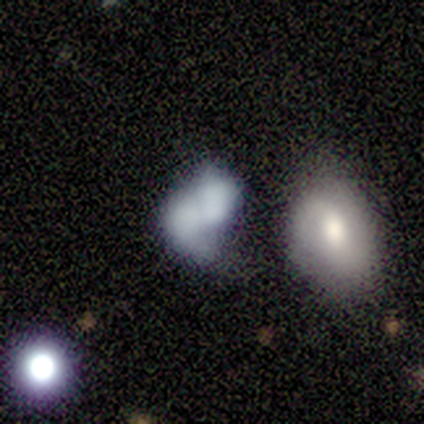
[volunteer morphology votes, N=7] Overall: smooth (43%; featured or disk 29%). How rounded: in between (67%; round 33%). Merging: none (40%, tied with major disturbance).